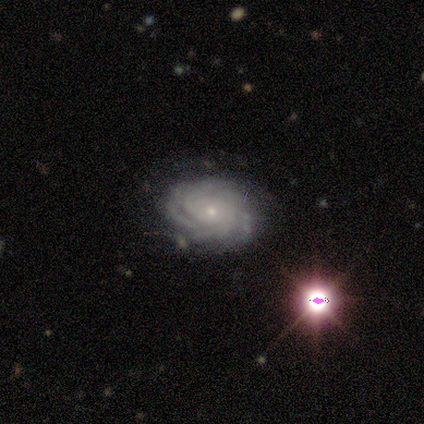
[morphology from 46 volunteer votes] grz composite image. It shows a featured or disk galaxy (93%) with no bar (93%), more than 4 (35%) tight (84%) spiral arms (100%) and a small central bulge (77%). Merging: none (74%).